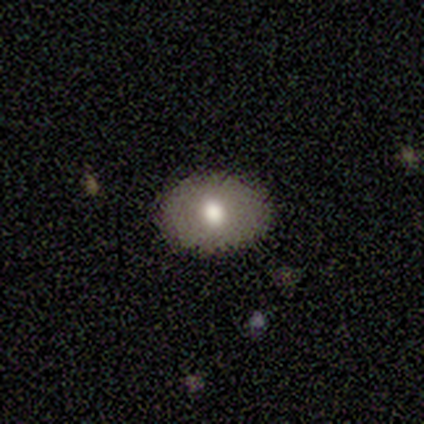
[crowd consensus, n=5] Overall: featured or disk (60%; smooth 40%). Edge-on disk: no (100%). Bar: no (100%). Spiral arms: no (100%). Bulge size: moderate (100%). Merging: none (100%).